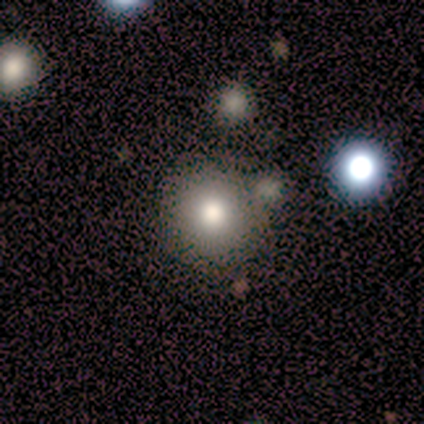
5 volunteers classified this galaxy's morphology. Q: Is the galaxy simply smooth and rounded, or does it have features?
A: smooth — 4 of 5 (80%).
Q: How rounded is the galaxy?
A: round — 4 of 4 (100%).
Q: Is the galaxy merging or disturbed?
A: none — 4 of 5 (80%).